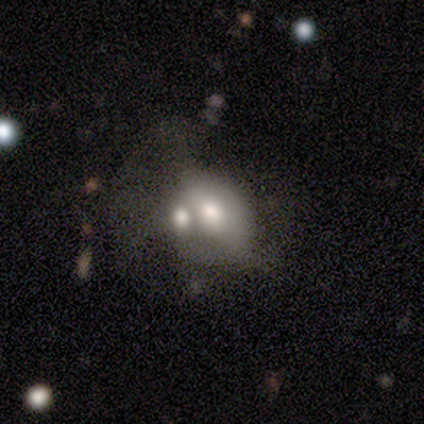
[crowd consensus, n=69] This appears to be a featured or disk galaxy (52%) with no bar (76%), no spiral arms (97%) and a moderate central bulge (59%). Merging: merger (69%).